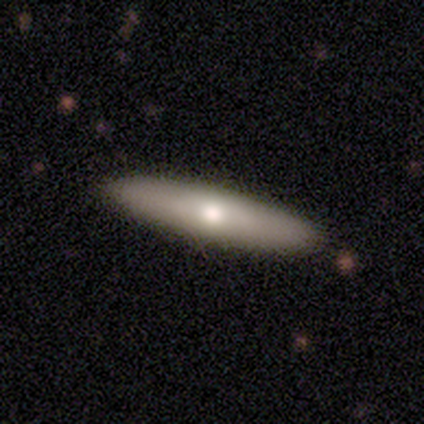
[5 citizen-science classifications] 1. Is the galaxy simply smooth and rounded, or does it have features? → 80% featured or disk, 20% smooth, 0% star or artifact.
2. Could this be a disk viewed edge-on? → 75% yes, 25% no.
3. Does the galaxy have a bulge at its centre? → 67% rounded, 33% none, 0% boxy.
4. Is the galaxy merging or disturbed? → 100% none, 0% minor disturbance, 0% major disturbance, 0% merger.